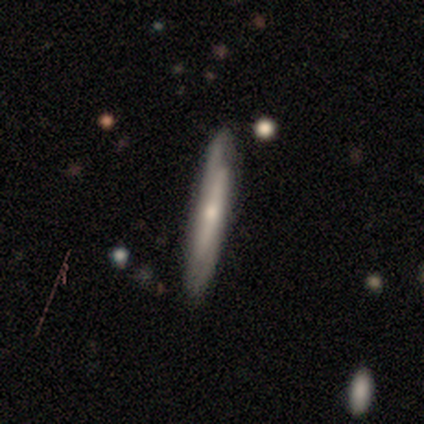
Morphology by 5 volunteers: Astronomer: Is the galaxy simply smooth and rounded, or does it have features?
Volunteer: smooth — 60% (runner-up: featured or disk, 40%).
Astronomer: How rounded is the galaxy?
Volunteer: cigar-shaped — 100%.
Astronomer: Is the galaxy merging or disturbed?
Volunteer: none — 60% (runner-up: minor disturbance, 40%).